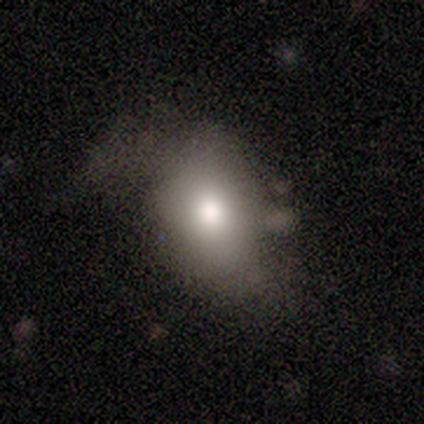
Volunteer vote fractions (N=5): This appears to be a smooth galaxy with no disk features (100%) that is in between round and cigar-shaped (100%). Merging: major disturbance (60%).